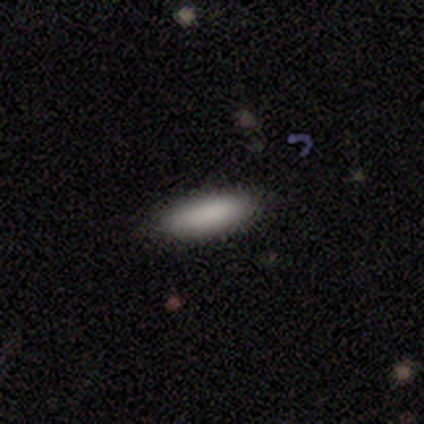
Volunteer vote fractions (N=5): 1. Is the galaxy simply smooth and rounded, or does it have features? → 100% smooth, 0% featured or disk, 0% star or artifact.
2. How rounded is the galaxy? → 80% in between, 20% cigar-shaped, 0% round.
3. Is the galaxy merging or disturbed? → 100% none, 0% minor disturbance, 0% major disturbance, 0% merger.